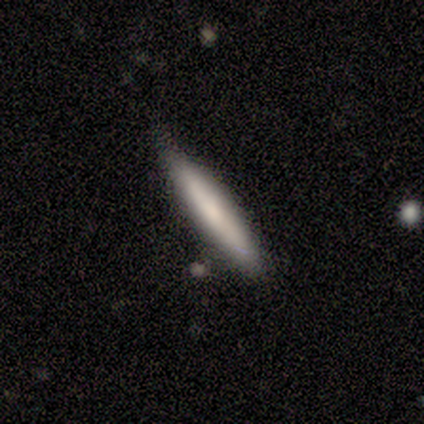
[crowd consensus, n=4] Smooth or featured: smooth — 100%
How rounded: cigar-shaped — 100%
Merging: none — 75% (minor disturbance — 25%)